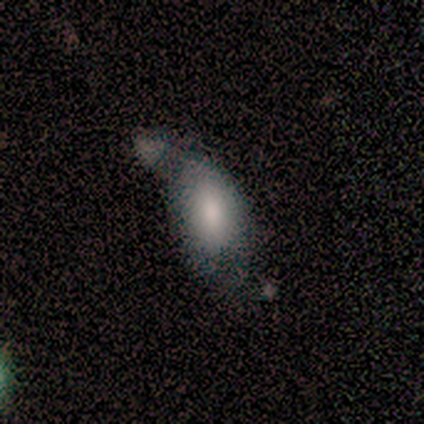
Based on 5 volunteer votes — Smooth or featured: smooth — 100%
How rounded: in between — 100%
Merging: major disturbance — 60% (none — 20%)